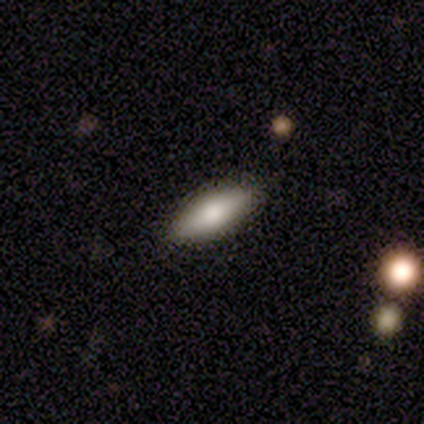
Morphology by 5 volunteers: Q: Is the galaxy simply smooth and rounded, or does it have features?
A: smooth — 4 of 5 (80%).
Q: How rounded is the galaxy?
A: in between — 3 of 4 (75%).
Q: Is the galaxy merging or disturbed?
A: none — 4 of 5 (80%).